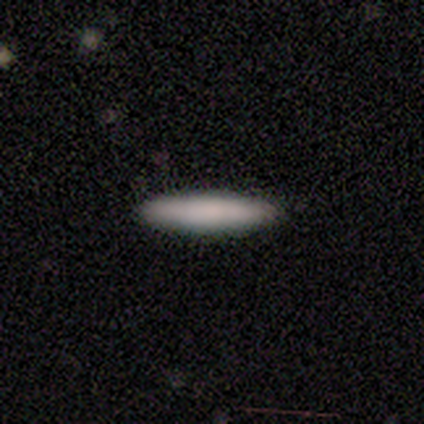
A smooth galaxy with no disk features (80%) that is cigar-shaped (100%). Merging: none (100%).